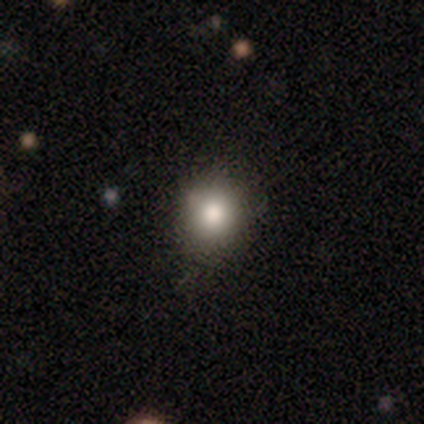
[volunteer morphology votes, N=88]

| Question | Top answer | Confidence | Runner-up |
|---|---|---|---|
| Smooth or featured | smooth | 75% | star or artifact (16%) |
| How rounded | round | 82% | in between (15%) |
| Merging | none | 74% | minor disturbance (18%) |